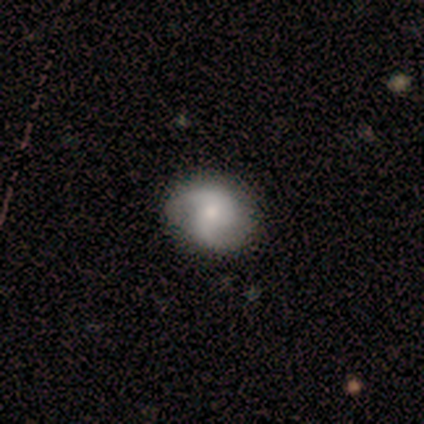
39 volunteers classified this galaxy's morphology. Smooth or featured: featured or disk — 62% (smooth — 36%)
Edge-on disk: no — 100%
Bar: no — 54% (weak — 42%)
Spiral arms: yes — 100%
Spiral winding: loose — 46% (medium — 33%)
Spiral arm count: 2 — 96% (1 — 4%)
Bulge size: small — 54% (moderate — 29%)
Merging: none — 37% (minor disturbance — 18%)